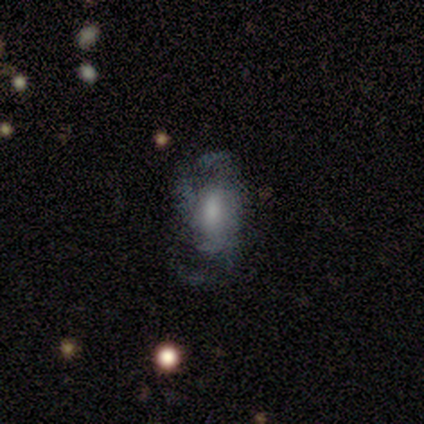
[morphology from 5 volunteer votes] A featured or disk galaxy (80%) with a weak bar (50%, tied with no), tight (50%) spiral arms (100%) and a large central bulge (50%). Merging: none (40%, tied with major disturbance).